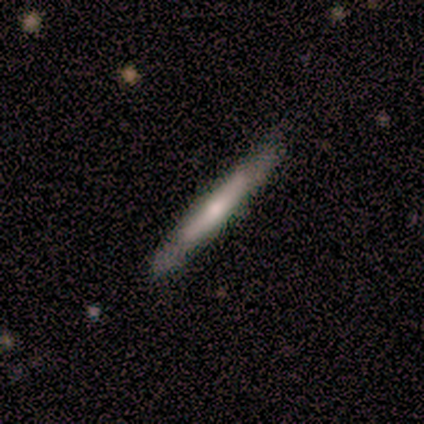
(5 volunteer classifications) Smooth or featured? featured or disk (60%)
Edge-on disk? yes (67%)
Edge-on bulge? none (100%)
Merging? none (100%)